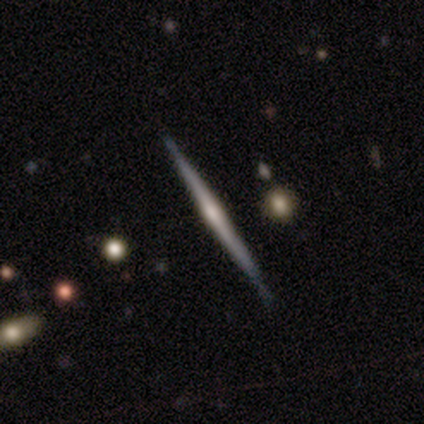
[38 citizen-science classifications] Volunteers were most divided on "edge-on bulge": rounded: 62%, none: 34%, boxy: 3%. More confident: edge-on disk — yes (100%); smooth or featured — featured or disk (84%); merging — none (71%).